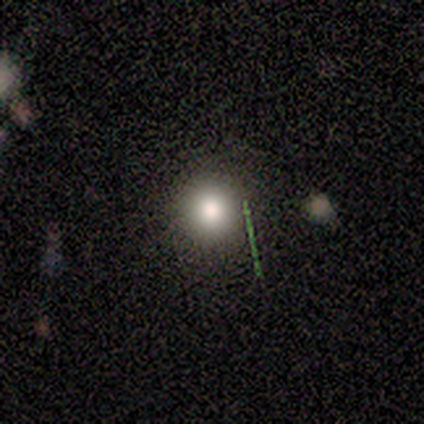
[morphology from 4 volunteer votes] Smooth or featured: smooth — 100%
How rounded: round — 100%
Merging: none — 100%